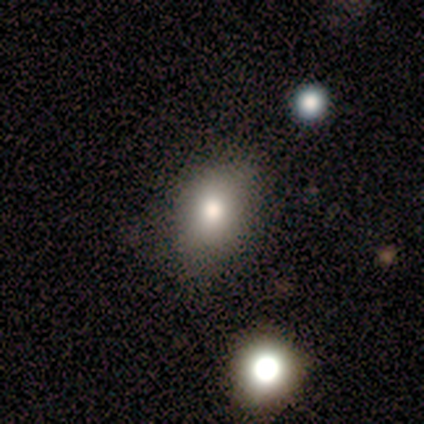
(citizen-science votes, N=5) A smooth galaxy with no disk features (100%) that is in between round and cigar-shaped (80%). Merging: none (80%).